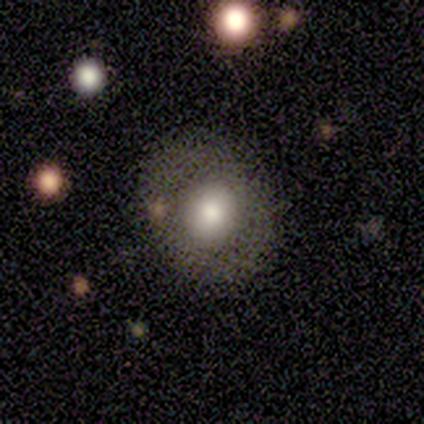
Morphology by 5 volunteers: Smooth or featured: smooth — 80% (featured or disk — 20%)
How rounded: round — 75% (in between — 25%)
Merging: none — 60% (minor disturbance — 40%)